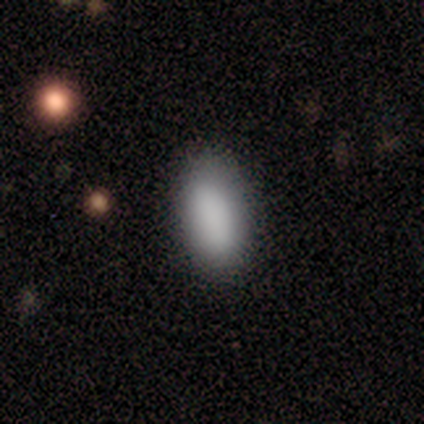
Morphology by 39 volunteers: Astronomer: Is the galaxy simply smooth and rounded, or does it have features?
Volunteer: smooth — 87%.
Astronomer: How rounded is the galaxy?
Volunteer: in between — 88%.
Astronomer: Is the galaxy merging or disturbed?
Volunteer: none — 86%.